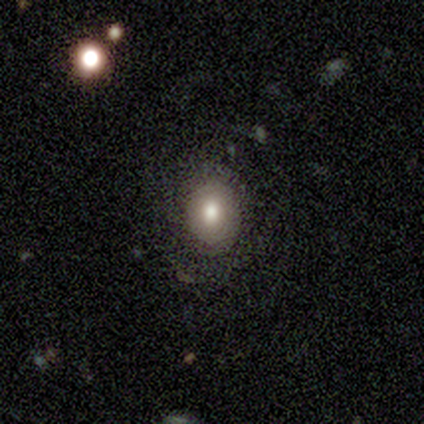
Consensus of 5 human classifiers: A smooth galaxy with no disk features (60%) that is in between round and cigar-shaped (100%).

Vote fractions:
- Smooth or featured? smooth: 60% / featured or disk: 40% / star or artifact: 0%
- How rounded? in between: 100% / round: 0% / cigar-shaped: 0%
- Merging? minor disturbance: 60% / none: 40% / major disturbance: 0% / merger: 0%